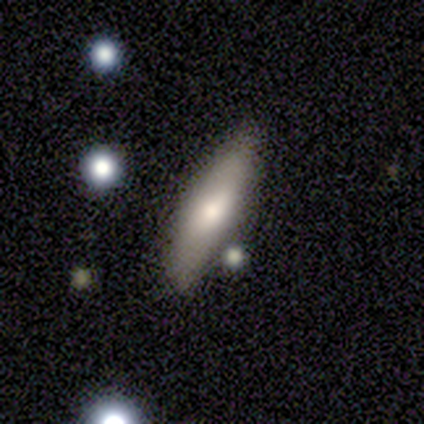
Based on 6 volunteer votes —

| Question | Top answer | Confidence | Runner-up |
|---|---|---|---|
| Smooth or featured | smooth | 50% | featured or disk (33%) |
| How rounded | cigar-shaped | 67% | in between (33%) |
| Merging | none | 80% | minor disturbance (20%) |